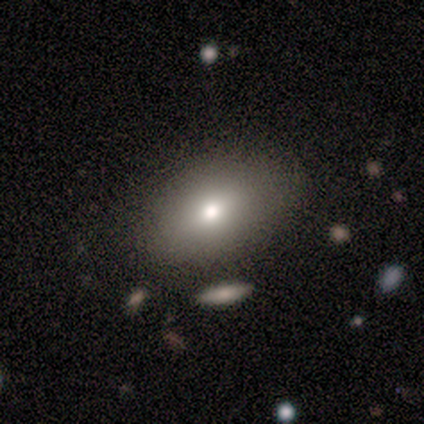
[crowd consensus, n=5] Smooth or featured: smooth — 100%
How rounded: in between — 80% (round — 20%)
Merging: none — 80% (minor disturbance — 20%)